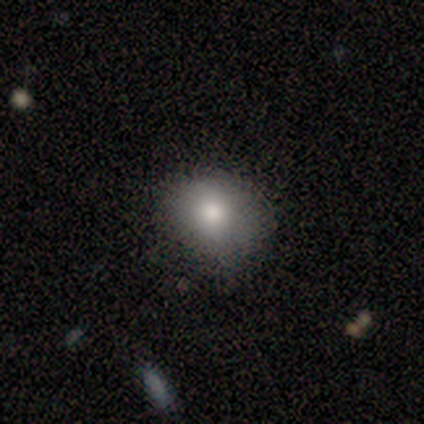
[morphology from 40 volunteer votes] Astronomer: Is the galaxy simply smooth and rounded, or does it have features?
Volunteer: smooth — 78%.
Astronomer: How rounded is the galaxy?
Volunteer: round — 61%.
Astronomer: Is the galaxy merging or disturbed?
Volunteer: none — 70%.